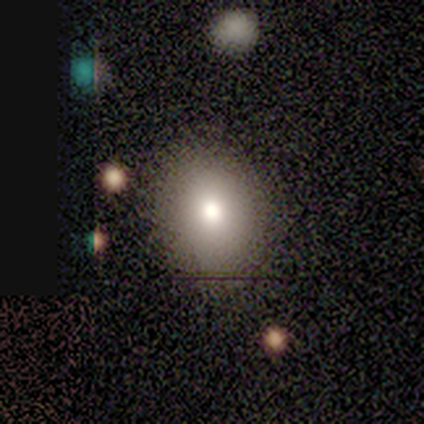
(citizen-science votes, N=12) smooth-or-featured: smooth: 75% | featured or disk: 17% | star or artifact: 8%
  how-rounded: in between: 67% | round: 33% | cigar-shaped: 0%
  merging: none: 100% | minor disturbance: 0% | major disturbance: 0% | merger: 0%